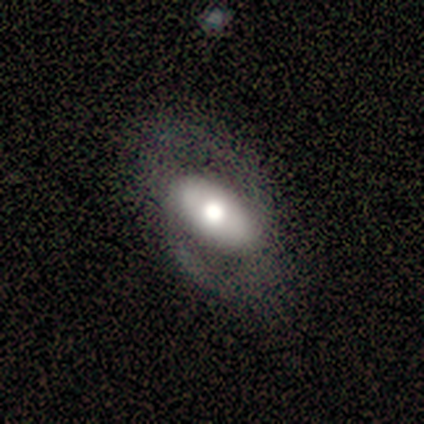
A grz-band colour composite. It shows a featured or disk galaxy (47%) with no bar (61%), no spiral arms (63%) and a moderate central bulge (50%). Merging: none (62%).